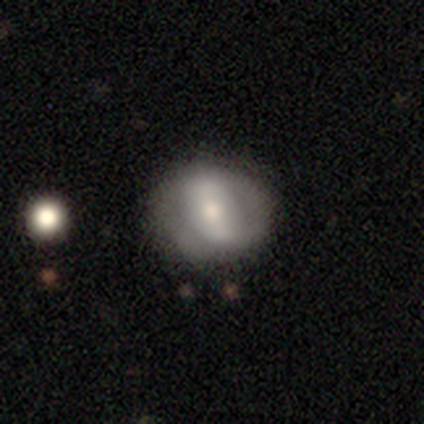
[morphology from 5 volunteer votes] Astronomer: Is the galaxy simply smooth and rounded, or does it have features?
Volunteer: smooth — 60% (runner-up: featured or disk, 40%).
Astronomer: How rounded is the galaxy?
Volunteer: round — 100%.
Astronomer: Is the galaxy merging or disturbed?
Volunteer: none — 60% (runner-up: minor disturbance, 40%).